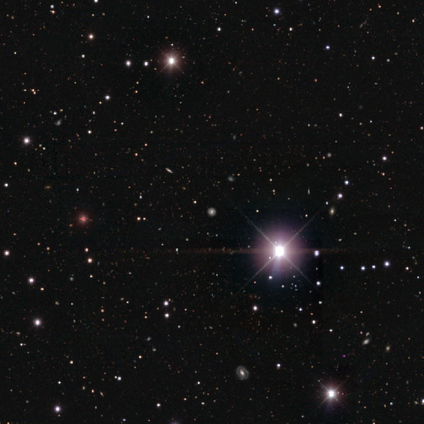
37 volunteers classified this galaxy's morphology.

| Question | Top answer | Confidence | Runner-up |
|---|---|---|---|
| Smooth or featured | star or artifact | 95% | smooth (3%) |